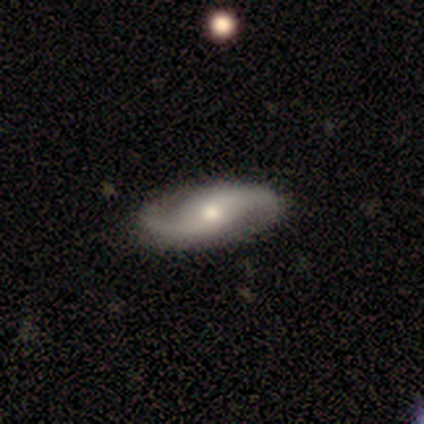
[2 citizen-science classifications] This is clearly a featured or disk galaxy (100%). It is clearly not viewed edge-on (100%). Bar: clearly weak (100%). Spiral arm pattern: clearly yes (100%). Spiral arm count: clearly 2 (100%). Spiral winding: clearly loose (100%). Central bulge: clearly moderate (100%). Merging: clearly none (100%).